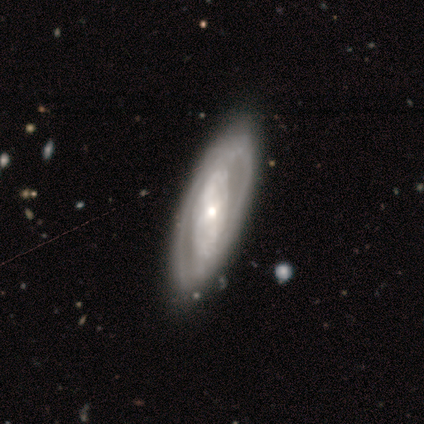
featured or disk 80%, smooth 20%, star or artifact 0%. Down the decision tree: edge-on disk — no (75%); bar — no (67%); spiral arms — yes (67%); spiral arm count — 2 (50%, tied with can't tell); spiral winding — tight (100%); bulge size — moderate (67%); merging — none (80%).